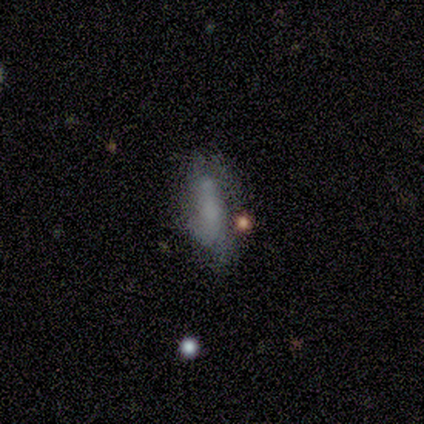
smooth-or-featured: smooth: 75% | featured or disk: 25% | star or artifact: 0%
  how-rounded: cigar-shaped: 67% | in between: 33% | round: 0%
  merging: none: 50% | minor disturbance: 25% | major disturbance: 25% | merger: 0%